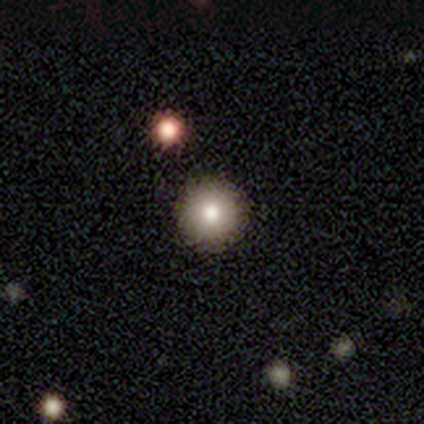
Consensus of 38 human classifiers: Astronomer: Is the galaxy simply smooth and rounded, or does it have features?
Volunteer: smooth — 82%.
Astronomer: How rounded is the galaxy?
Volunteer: round — 100%.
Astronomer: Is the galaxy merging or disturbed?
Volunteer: none — 94%.